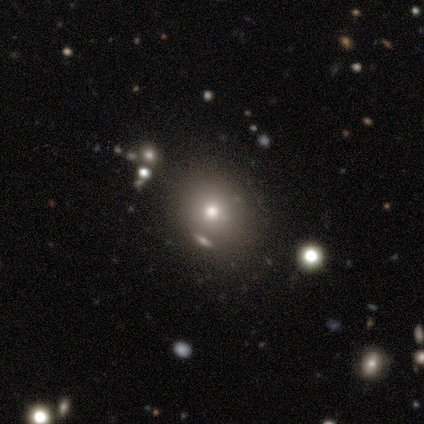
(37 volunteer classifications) Volunteers were most divided on "smooth or featured": smooth: 62%, star or artifact: 24%, featured or disk: 14%. More confident: merging — none (86%); how rounded — round (78%).